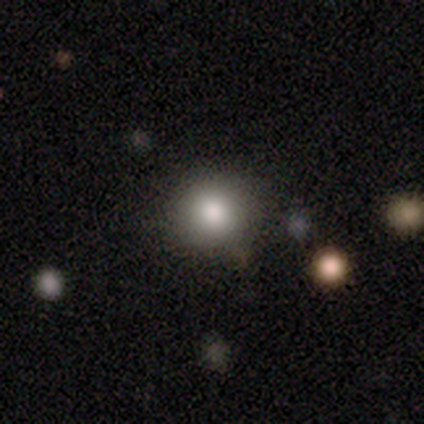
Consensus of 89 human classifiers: Smooth or featured? 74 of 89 (83%) said smooth. How rounded? 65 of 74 (88%) said round. Merging? 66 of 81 (81%) said none.